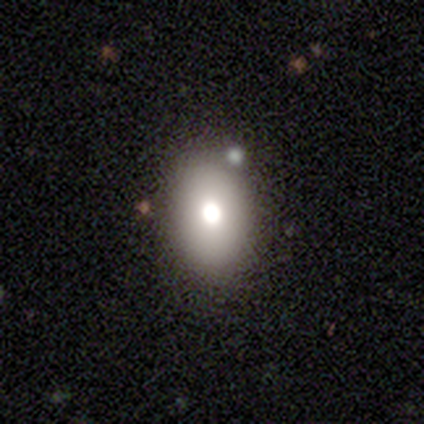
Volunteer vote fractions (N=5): Overall: smooth (100%). How rounded: in between (80%). Merging: none (80%).